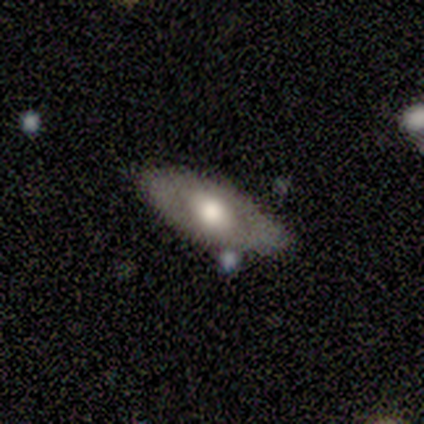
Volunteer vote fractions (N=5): Volunteers were most divided on "how rounded": in between: 67%, cigar-shaped: 33%, round: 0%. More confident: merging — none (100%); smooth or featured — smooth (60%).